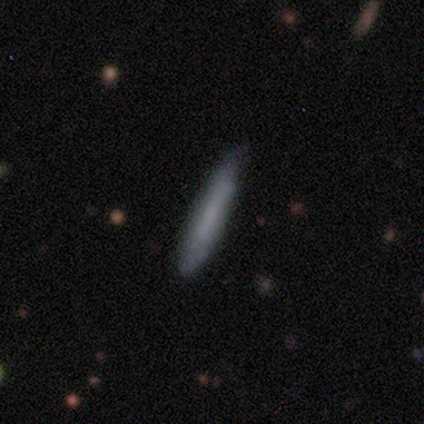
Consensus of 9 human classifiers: Smooth or featured? 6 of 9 (67%) said featured or disk. Edge-on disk? 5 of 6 (83%) said yes. Edge-on bulge? 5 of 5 (100%) said none. Merging? 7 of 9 (78%) said none.